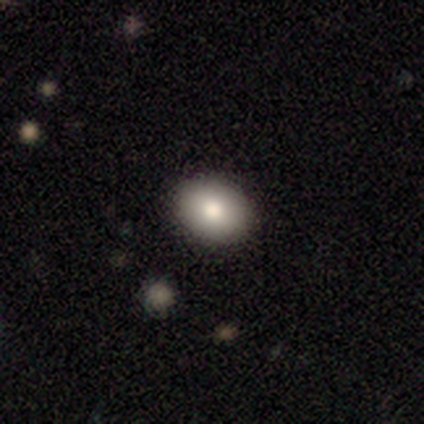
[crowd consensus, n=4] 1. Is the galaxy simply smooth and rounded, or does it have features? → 100% smooth, 0% featured or disk, 0% star or artifact.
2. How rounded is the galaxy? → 75% round, 25% in between, 0% cigar-shaped.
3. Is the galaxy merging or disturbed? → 100% none, 0% minor disturbance, 0% major disturbance, 0% merger.